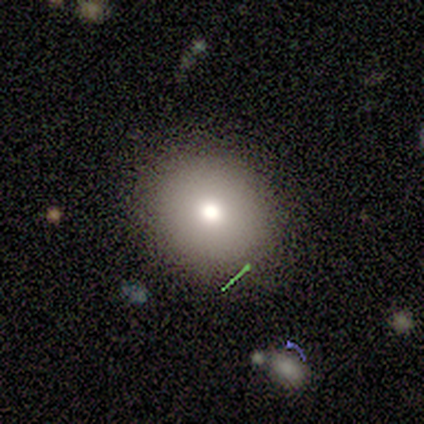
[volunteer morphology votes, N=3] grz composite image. It shows a smooth galaxy with no disk features (67%) that is round (100%). Merging: none (100%).